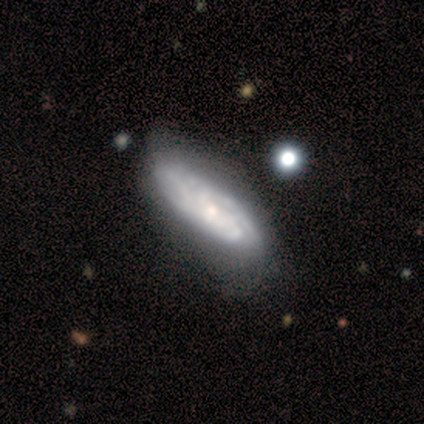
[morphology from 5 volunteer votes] smooth-or-featured: featured or disk: 80% | smooth: 20% | star or artifact: 0%
  disk-edge-on: no: 75% | yes: 25%
    bar: no: 100% | strong: 0% | weak: 0%
    has-spiral-arms: yes: 100% | no: 0%
      spiral-winding: tight: 67% | medium: 33% | loose: 0%
      spiral-arm-count: can't tell: 67% | 3: 33% | 1: 0% | 2: 0% | 4: 0% | more than 4: 0%
    bulge-size: small: 100% | dominant: 0% | large: 0% | moderate: 0% | none: 0%
  merging: minor disturbance: 60% | none: 40% | major disturbance: 0% | merger: 0%